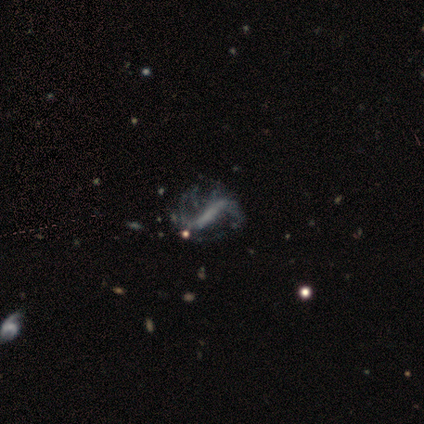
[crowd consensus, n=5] Morphology: type=featured or disk (80%); edge-on=no (100%); bar=strong (75%); spiral arms=yes (100%); winding=loose (100%); arm count=2 (50%); bulge=none (100%); merging=none (50%, tied with minor disturbance).